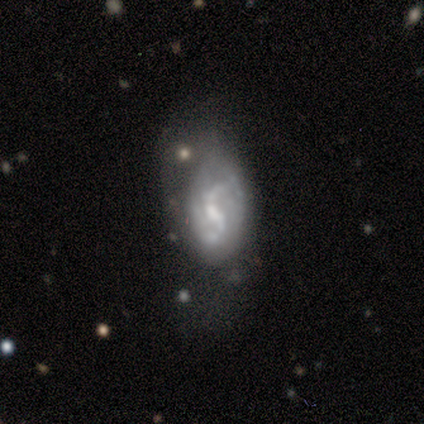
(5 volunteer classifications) smooth-or-featured: featured or disk: 80% | smooth: 20% | star or artifact: 0%
  disk-edge-on: no: 100% | yes: 0%
    bar: weak: 75% | strong: 25% | no: 0%
    has-spiral-arms: yes: 75% | no: 25%
      spiral-winding: loose: 67% | tight: 33% | medium: 0%
      spiral-arm-count: 2: 100% | 1: 0% | 3: 0% | 4: 0% | more than 4: 0% | can't tell: 0%
    bulge-size: small: 75% | moderate: 25% | dominant: 0% | large: 0% | none: 0%
  merging: merger: 40% | none: 20% | minor disturbance: 20% | major disturbance: 20%